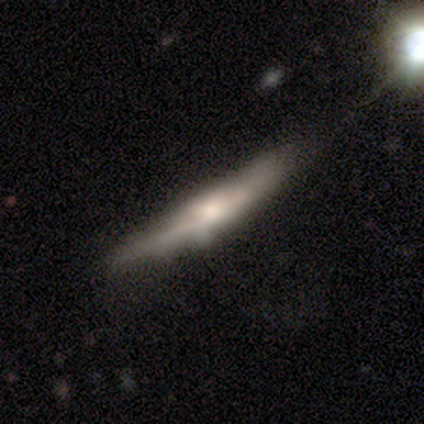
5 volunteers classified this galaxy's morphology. A featured or disk galaxy (60%) viewed edge-on (67%) with a rounded central bulge (100%).

Vote fractions:
- Smooth or featured? featured or disk: 60% / smooth: 40% / star or artifact: 0%
- Edge-on disk? yes: 67% / no: 33%
- Edge-on bulge? rounded: 100% / boxy: 0% / none: 0%
- Merging? minor disturbance: 60% / none: 20% / merger: 20% / major disturbance: 0%